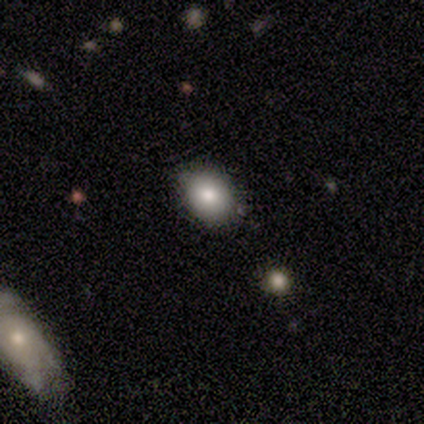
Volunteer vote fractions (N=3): Smooth or featured? 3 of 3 (100%) said smooth. How rounded? 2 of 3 (67%) said round. Merging? 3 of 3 (100%) said none.